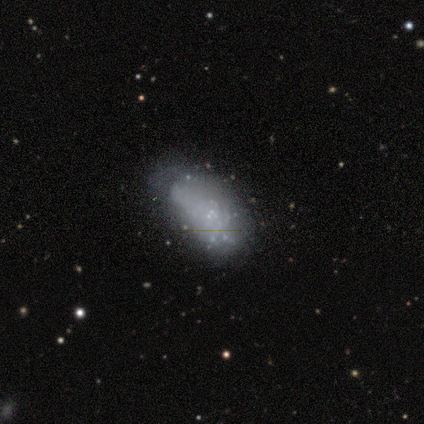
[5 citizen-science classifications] Morphology: type=smooth (60%); roundness=in between (67%); merging=minor disturbance (60%).